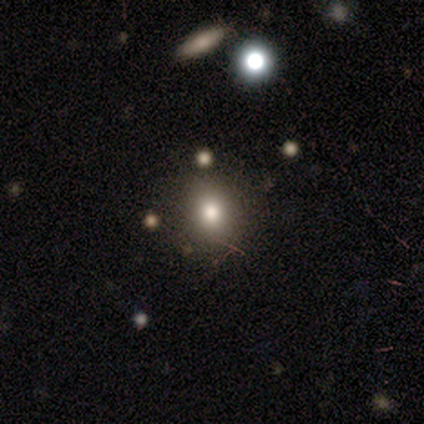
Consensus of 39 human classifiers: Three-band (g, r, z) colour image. It shows a smooth galaxy with no disk features (64%) that is round (80%). Merging: none (84%).